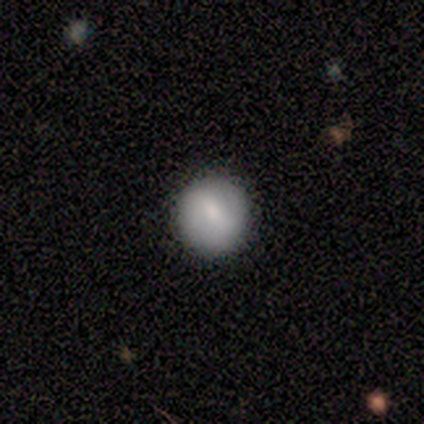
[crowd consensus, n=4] Smooth or featured: smooth — 100%
How rounded: round — 100%
Merging: none — 100%